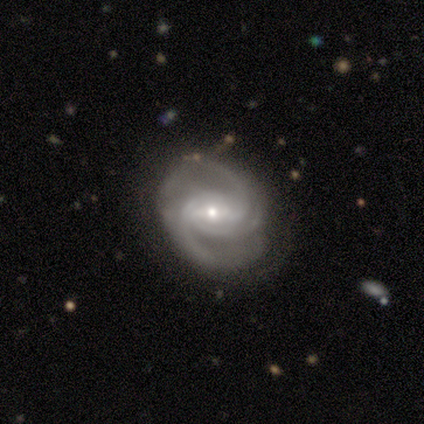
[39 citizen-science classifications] smooth_or_featured: featured or disk (p=0.92) [alt: star or artifact p=0.08]
disk_edge_on: no (p=0.97) [alt: yes p=0.03]
bar: weak (p=0.57) [alt: strong p=0.29]
has_spiral_arms: yes (p=0.97) [alt: no p=0.03]
spiral_winding: medium (p=0.50) [alt: tight p=0.41]
spiral_arm_count: 3 (p=0.47) [alt: 2 p=0.35]
bulge_size: small (p=0.83) [alt: moderate p=0.17]
merging: none (p=0.72) [alt: minor disturbance p=0.22]